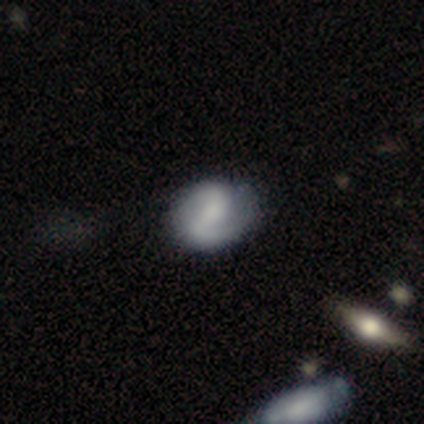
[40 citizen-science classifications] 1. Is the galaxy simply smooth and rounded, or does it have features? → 80% featured or disk, 18% smooth, 2% star or artifact.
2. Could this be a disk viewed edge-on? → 100% no, 0% yes.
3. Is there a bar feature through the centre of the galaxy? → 38% no, 31% strong, 31% weak.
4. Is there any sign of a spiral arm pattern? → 88% yes, 12% no.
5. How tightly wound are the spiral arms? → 46% medium, 29% loose, 25% tight.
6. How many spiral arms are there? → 89% 2, 11% can't tell, 0% 1, 0% 3, 0% 4, 0% more than 4.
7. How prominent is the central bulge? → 34% none, 31% small, 22% moderate, 12% large, 0% dominant.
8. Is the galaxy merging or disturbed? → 59% none, 8% minor disturbance, 5% merger, 0% major disturbance.